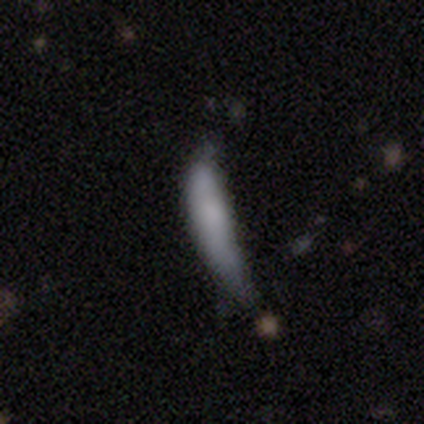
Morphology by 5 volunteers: smooth-or-featured: smooth: 100% | featured or disk: 0% | star or artifact: 0%
  how-rounded: cigar-shaped: 100% | round: 0% | in between: 0%
  merging: none: 40% (tied) | major disturbance: 40% (tied) | minor disturbance: 20% | merger: 0%